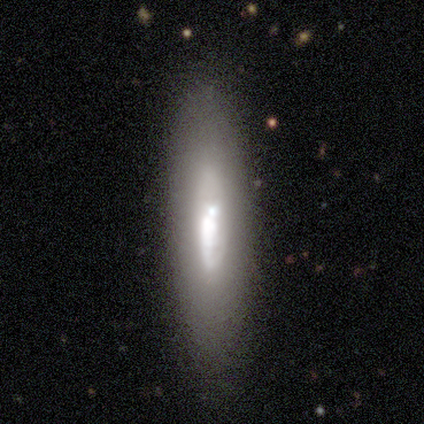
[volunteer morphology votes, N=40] Smooth or featured: smooth — 50% (featured or disk — 48%)
How rounded: cigar-shaped — 85% (in between — 15%)
Merging: none — 77% (minor disturbance — 10%)